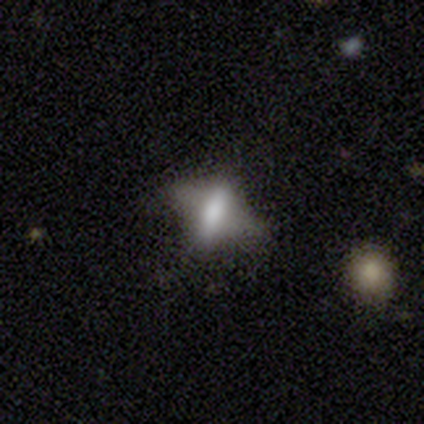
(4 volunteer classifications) Smooth or featured? 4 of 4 (100%) said featured or disk. Edge-on disk? 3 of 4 (75%) said yes. Edge-on bulge? 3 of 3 (100%) said rounded. Merging? 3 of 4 (75%) said none.